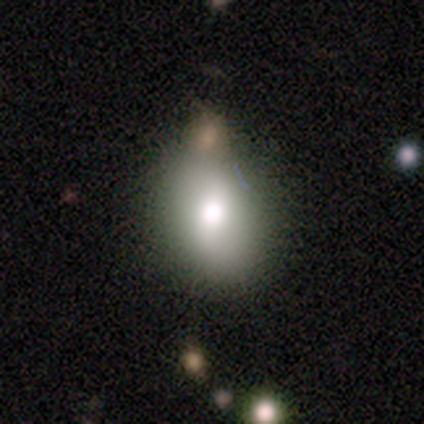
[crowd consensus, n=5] smooth 40% (tied), featured or disk 40% (tied), star or artifact 20%. Down the decision tree: how rounded — in between (100%); merging — none (75%).